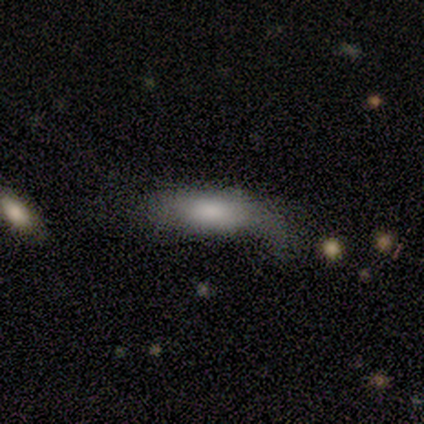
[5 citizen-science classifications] This is clearly a smooth galaxy (100%). How rounded: likely in between (60%). Merging: marginally minor disturbance (40%).